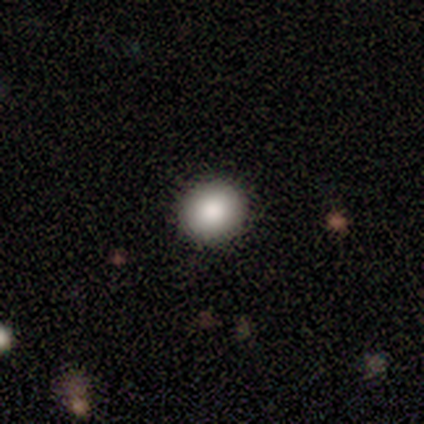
Overall: smooth (92%). How rounded: round (90%). Merging: none (56%).